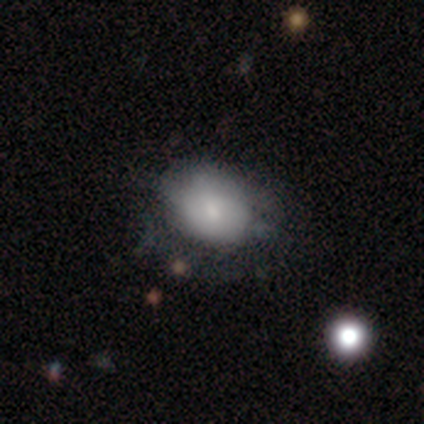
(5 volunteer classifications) Q: Smooth or featured?
A: smooth (60%); runner-up: featured or disk (40%)
Q: How rounded?
A: in between (67%); runner-up: round (33%)
Q: Merging?
A: major disturbance (60%); runner-up: none (40%)